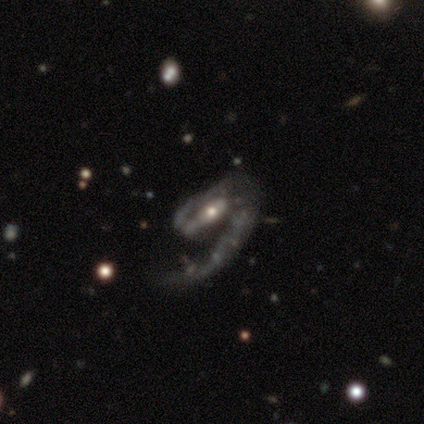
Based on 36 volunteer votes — Morphology: type=featured or disk (100%); edge-on=no (100%); bar=weak (50%); spiral arms=yes (100%); winding=medium (56%); arm count=1 (72%); bulge=moderate (44%); merging=none (58%).